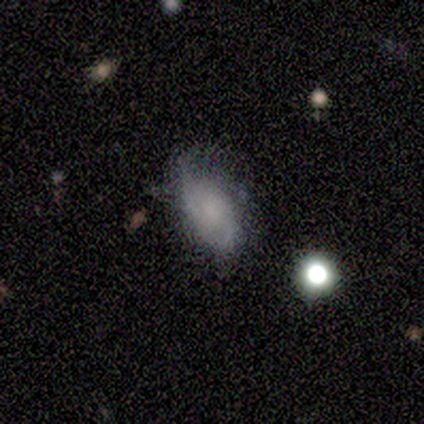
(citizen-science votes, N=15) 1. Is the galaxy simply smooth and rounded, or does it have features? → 67% smooth, 33% featured or disk, 0% star or artifact.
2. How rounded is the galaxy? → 100% in between, 0% round, 0% cigar-shaped.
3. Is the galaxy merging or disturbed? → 53% none, 33% minor disturbance, 13% major disturbance, 0% merger.